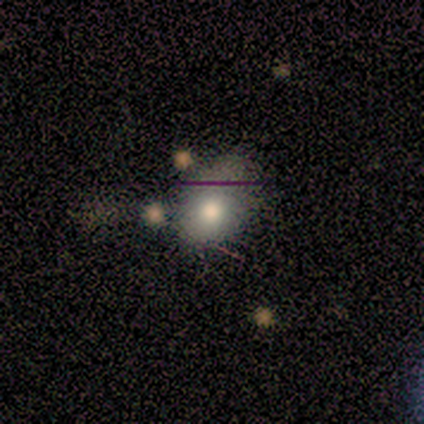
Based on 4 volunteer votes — Smooth or featured: smooth — 75% (star or artifact — 25%)
How rounded: in between — 100%
Merging: minor disturbance — 67% (none — 33%)